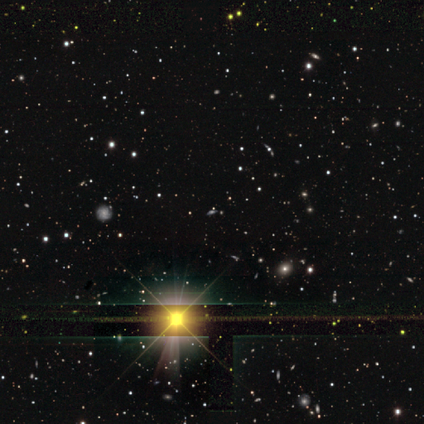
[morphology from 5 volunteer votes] star or artifact 80%, smooth 20%, featured or disk 0%.